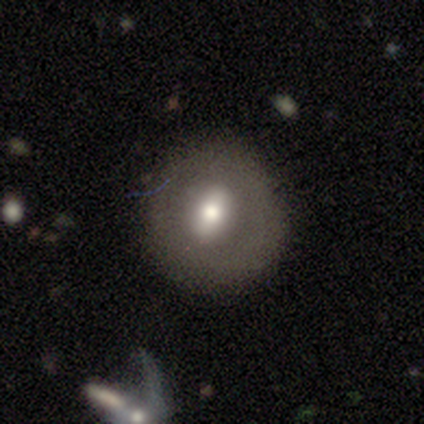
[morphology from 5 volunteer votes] Smooth or featured: featured or disk — 60% (smooth — 40%)
Edge-on disk: no — 100%
Bar: strong — 67% (weak — 33%)
Spiral arms: no — 100%
Bulge size: small — 67% (large — 33%)
Merging: none — 60% (minor disturbance — 20%)